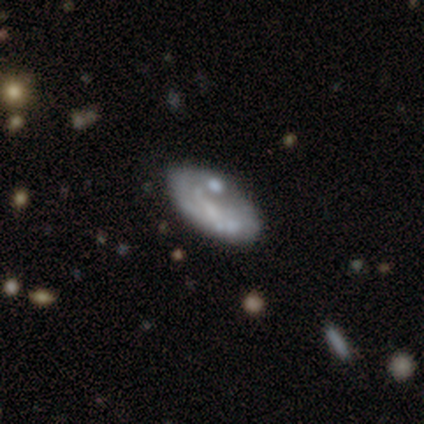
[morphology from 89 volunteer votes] Q: Smooth or featured?
A: featured or disk (48%); runner-up: smooth (46%)
Q: Edge-on disk?
A: no (95%); runner-up: yes (5%)
Q: Bar?
A: no (76%); runner-up: weak (17%)
Q: Spiral arms?
A: no (66%); runner-up: yes (34%)
Q: Bulge size?
A: none (56%); runner-up: small (32%)
Q: Merging?
A: none (67%); runner-up: minor disturbance (19%)